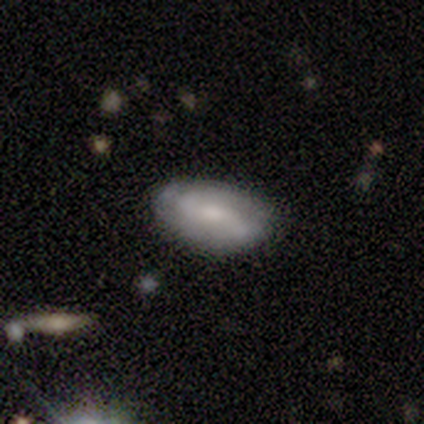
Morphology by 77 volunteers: Overall: featured or disk (52%; smooth 43%). Edge-on disk: no (88%). Bar: no (43%; weak 40%). Spiral arms: yes (86%). Spiral arm count: 2 (67%; can't tell 30%). Spiral winding: tight (40%; medium 37%). Bulge size: moderate (63%; small 26%). Merging: none (44%; minor disturbance 8%).